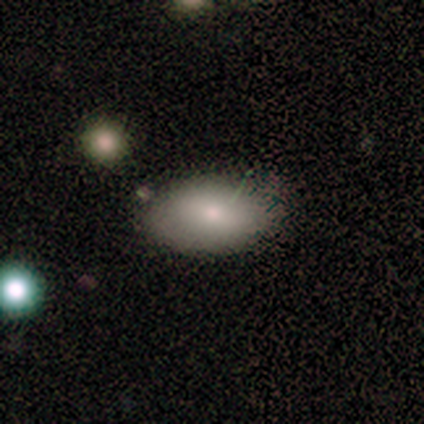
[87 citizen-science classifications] Volunteers were most divided on "merging": none: 69%, minor disturbance: 25%, major disturbance: 5%, merger: 1%. More confident: how rounded — in between (93%); smooth or featured — smooth (77%).